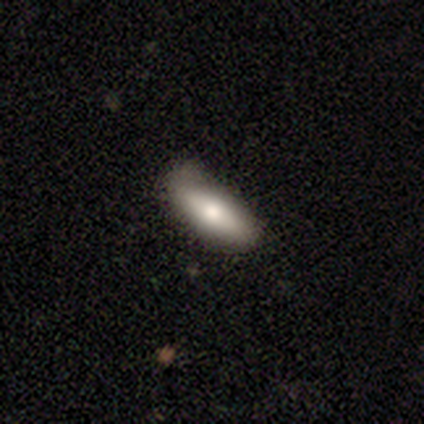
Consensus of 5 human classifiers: Volunteers were most divided on "merging": minor disturbance: 75%, none: 25%, major disturbance: 0%, merger: 0%. More confident: how rounded — in between (100%); smooth or featured — smooth (80%).